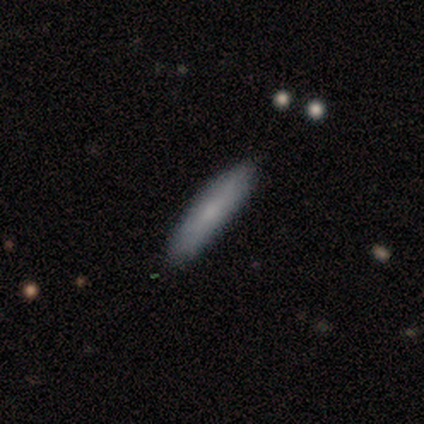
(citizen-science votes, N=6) This is likely a smooth galaxy (67%). How rounded: clearly cigar-shaped (100%). Merging: clearly none (100%).